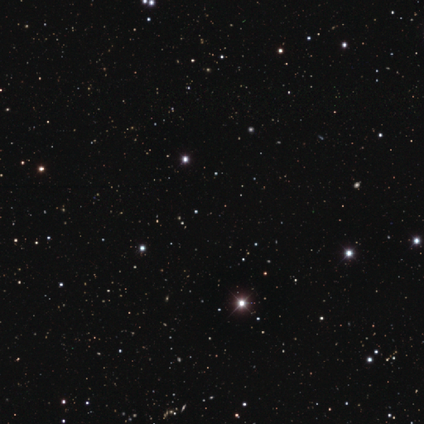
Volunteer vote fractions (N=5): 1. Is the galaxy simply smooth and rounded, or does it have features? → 100% star or artifact, 0% smooth, 0% featured or disk.